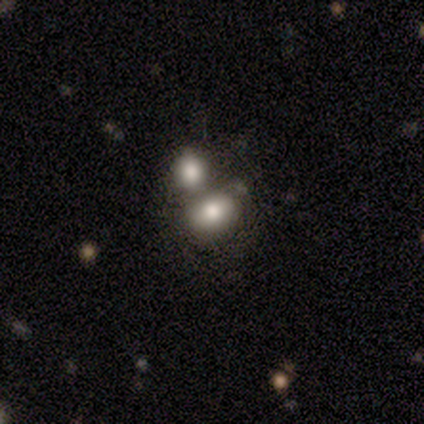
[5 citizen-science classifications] A smooth galaxy with no disk features (60%) that is in between round and cigar-shaped (67%). Merging: merger (60%).